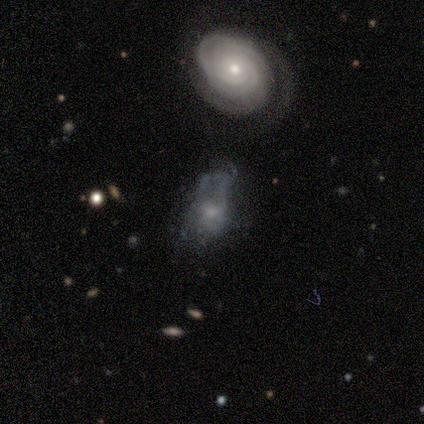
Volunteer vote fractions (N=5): smooth_or_featured: featured or disk (p=0.60) [alt: smooth p=0.20]
disk_edge_on: no (p=1.00)
bar: no (p=1.00)
has_spiral_arms: yes (p=0.67) [alt: no p=0.33]
spiral_winding: tight (p=1.00)
spiral_arm_count: 4 (p=0.50) [tied with: can't tell p=0.50]
bulge_size: small (p=0.67) [alt: moderate p=0.33]
merging: none (p=0.25) [tied with: minor disturbance p=0.25, major disturbance p=0.25, merger p=0.25]